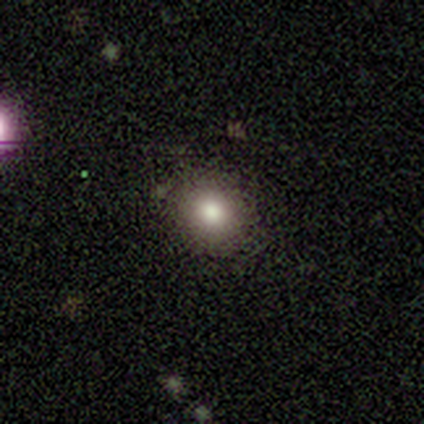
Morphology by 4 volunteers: This appears to be a smooth galaxy with no disk features (100%) that is round (75%). Merging: none (75%).